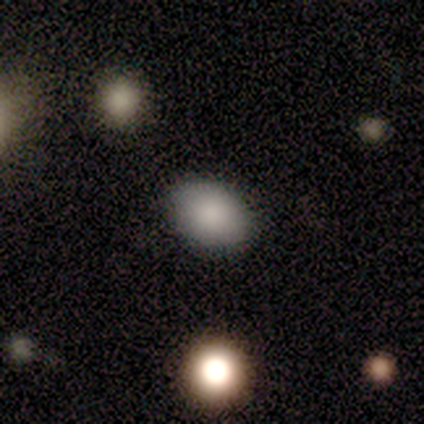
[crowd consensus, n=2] smooth_or_featured: smooth (p=0.50) [tied with: featured or disk p=0.50]
how_rounded: in between (p=1.00)
merging: none (p=1.00)